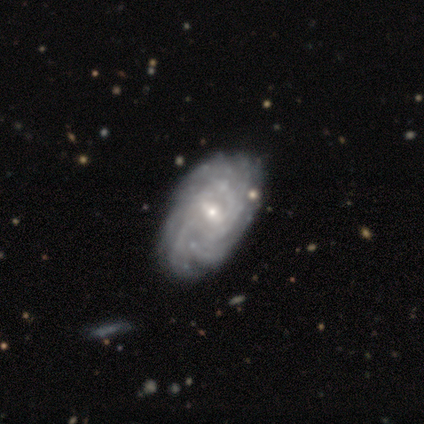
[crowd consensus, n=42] Smooth or featured: featured or disk — 86% (smooth — 12%)
Edge-on disk: no — 97% (yes — 3%)
Bar: weak — 49% (no — 37%)
Spiral arms: yes — 97% (no — 3%)
Spiral winding: tight — 79% (medium — 15%)
Spiral arm count: more than 4 — 38% (can't tell — 35%)
Bulge size: small — 66% (moderate — 31%)
Merging: none — 85% (minor disturbance — 10%)